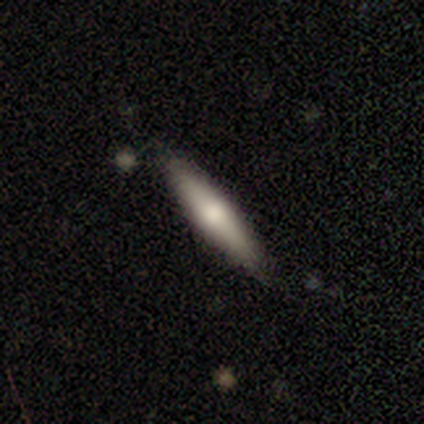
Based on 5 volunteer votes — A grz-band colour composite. It shows a smooth galaxy with no disk features (60%) that is cigar-shaped (67%). Merging: none (80%).